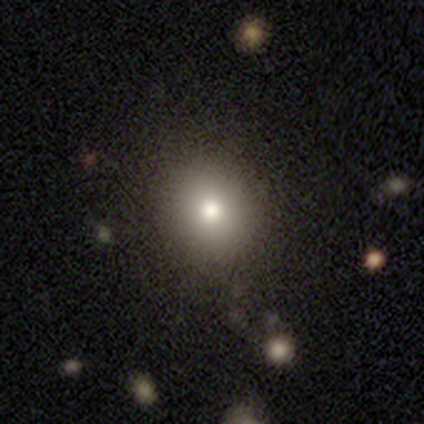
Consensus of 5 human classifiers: A smooth galaxy with no disk features (60%) that is round (67%).

Vote fractions:
- Smooth or featured? smooth: 60% / star or artifact: 40% / featured or disk: 0%
- How rounded? round: 67% / in between: 33% / cigar-shaped: 0%
- Merging? none: 100% / minor disturbance: 0% / major disturbance: 0% / merger: 0%